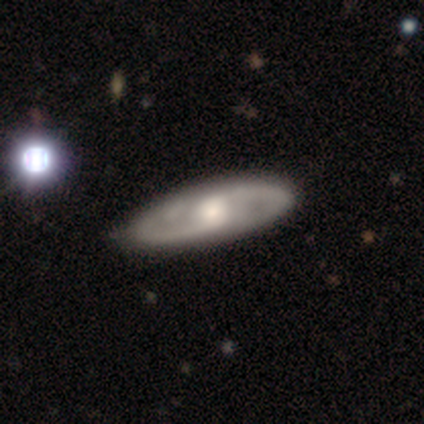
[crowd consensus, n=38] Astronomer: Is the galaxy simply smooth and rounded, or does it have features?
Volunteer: featured or disk — 92%.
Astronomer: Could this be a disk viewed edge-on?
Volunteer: no — 86%.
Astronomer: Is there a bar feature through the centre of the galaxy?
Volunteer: no — 57% (runner-up: weak, 33%).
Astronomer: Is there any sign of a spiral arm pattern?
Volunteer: yes — 97%.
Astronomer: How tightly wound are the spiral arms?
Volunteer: medium — 66%.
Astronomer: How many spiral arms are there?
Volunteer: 2 — 83%.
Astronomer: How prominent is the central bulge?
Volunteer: moderate — 50%.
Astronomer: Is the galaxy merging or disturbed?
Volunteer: none — 63%.